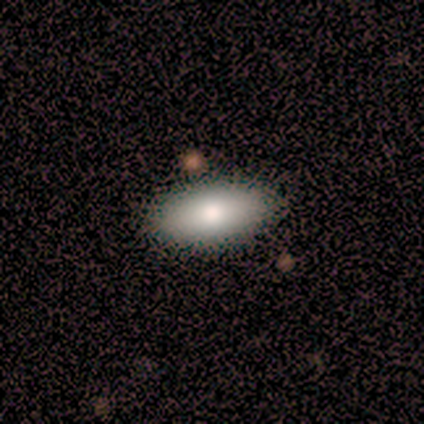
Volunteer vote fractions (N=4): Smooth or featured? 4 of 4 (100%) said smooth. How rounded? 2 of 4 (50%, tied with cigar-shaped) said in between. Merging? 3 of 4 (75%) said none.